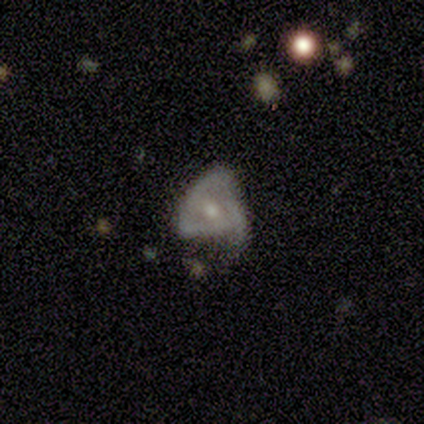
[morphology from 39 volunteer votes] Smooth or featured: featured or disk — 67% (smooth — 28%)
Edge-on disk: no — 100%
Bar: no — 77% (weak — 23%)
Spiral arms: no — 62% (yes — 38%)
Bulge size: small — 58% (moderate — 35%)
Merging: none — 35% (minor disturbance — 32%)